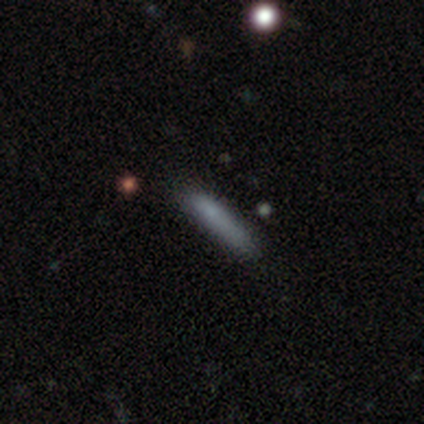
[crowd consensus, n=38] Smooth or featured? smooth (76%)
How rounded? cigar-shaped (93%)
Merging? none (83%)